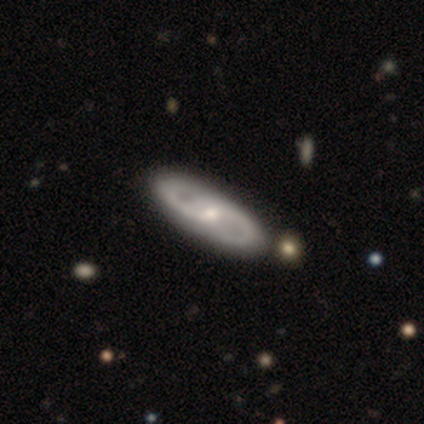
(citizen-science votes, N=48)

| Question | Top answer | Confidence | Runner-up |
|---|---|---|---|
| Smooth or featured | featured or disk | 81% | smooth (17%) |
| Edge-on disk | no | 95% | yes (5%) |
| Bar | weak | 57% | no (41%) |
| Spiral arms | yes | 84% | no (16%) |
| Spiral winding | medium | 55% | tight (32%) |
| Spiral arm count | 2 | 94% | can't tell (6%) |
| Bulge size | small | 51% | moderate (46%) |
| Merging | none | 85% | merger (6%) |